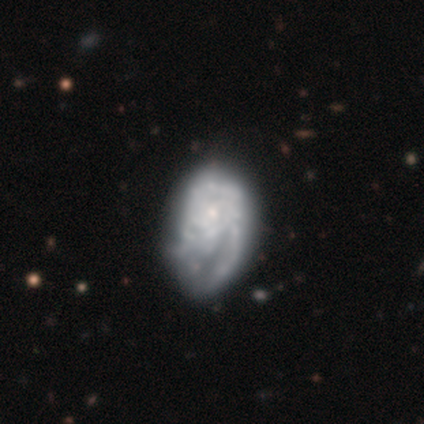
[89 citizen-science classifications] Smooth or featured: featured or disk — 72% (smooth — 19%)
Edge-on disk: no — 97% (yes — 3%)
Bar: no — 92% (weak — 8%)
Spiral arms: yes — 65% (no — 35%)
Spiral winding: tight — 52% (medium — 30%)
Spiral arm count: can't tell — 62% (1 — 20%)
Bulge size: small — 69% (moderate — 15%)
Merging: major disturbance — 42% (none — 28%)